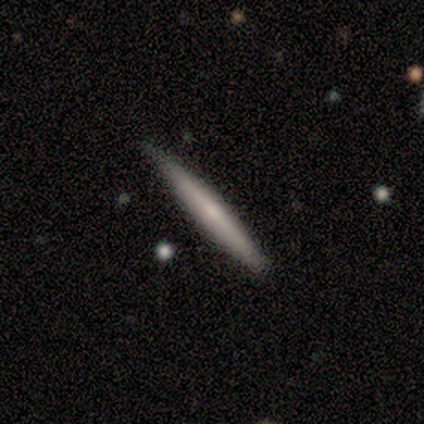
Smooth or featured: smooth — 60% (featured or disk — 40%)
How rounded: cigar-shaped — 100%
Merging: none — 100%